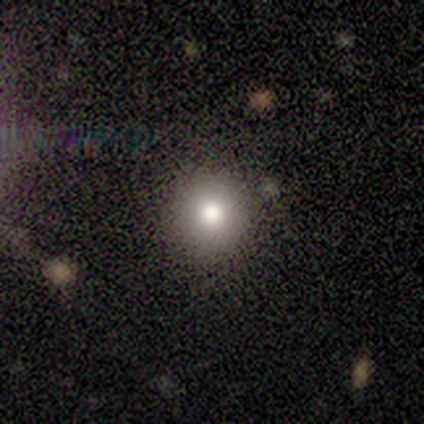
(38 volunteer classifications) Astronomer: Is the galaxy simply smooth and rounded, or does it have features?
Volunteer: smooth — 84%.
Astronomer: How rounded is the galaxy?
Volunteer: round — 97%.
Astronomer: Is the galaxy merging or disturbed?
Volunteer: none — 77%.